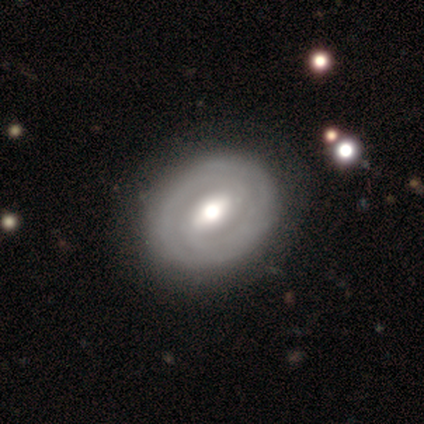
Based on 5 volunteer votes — This is likely a featured or disk galaxy (60%). It is clearly not viewed edge-on (100%). Bar: clearly strong (100%). Spiral arm pattern: likely yes (67%). Spiral arm count: clearly 2 (100%). Spiral winding: clearly tight (100%). Central bulge: clearly moderate (100%). Merging: clearly none (80%).